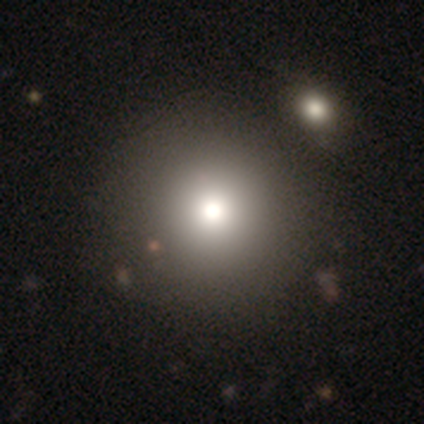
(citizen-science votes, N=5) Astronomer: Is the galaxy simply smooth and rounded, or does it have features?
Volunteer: smooth — 60% (runner-up: featured or disk, 40%).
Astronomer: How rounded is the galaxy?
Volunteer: round — 100%.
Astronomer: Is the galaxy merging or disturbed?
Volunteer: none — 80%.